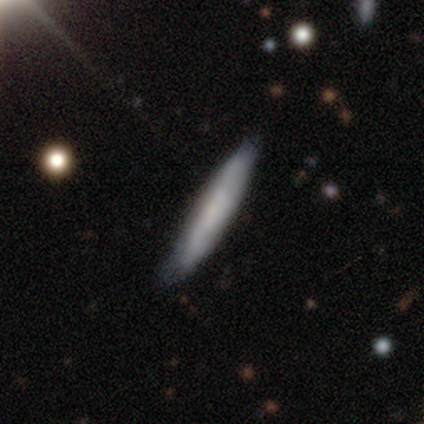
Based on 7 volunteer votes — Volunteers were most divided on "merging": none: 71%, minor disturbance: 29%, major disturbance: 0%, merger: 0%. More confident: how rounded — cigar-shaped (100%); smooth or featured — smooth (86%).